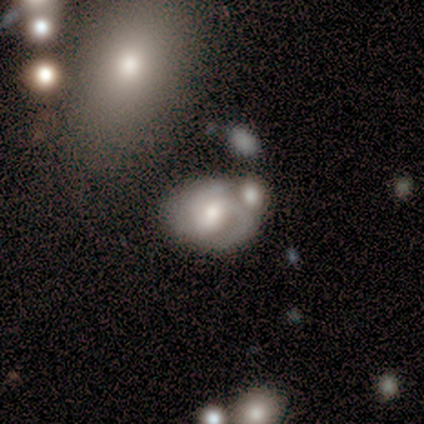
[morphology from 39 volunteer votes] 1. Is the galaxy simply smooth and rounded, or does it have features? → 82% featured or disk, 15% smooth, 3% star or artifact.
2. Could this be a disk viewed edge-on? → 100% no, 0% yes.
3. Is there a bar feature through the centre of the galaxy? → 50% weak, 44% no, 6% strong.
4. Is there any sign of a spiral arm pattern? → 84% yes, 16% no.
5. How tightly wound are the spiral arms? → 56% tight, 26% medium, 19% loose.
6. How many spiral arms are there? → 63% 2, 26% 3, 7% can't tell, 4% 1, 0% 4, 0% more than 4.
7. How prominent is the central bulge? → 47% moderate, 34% large, 16% small, 3% none, 0% dominant.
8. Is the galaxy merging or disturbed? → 61% merger, 18% none, 8% minor disturbance, 0% major disturbance.